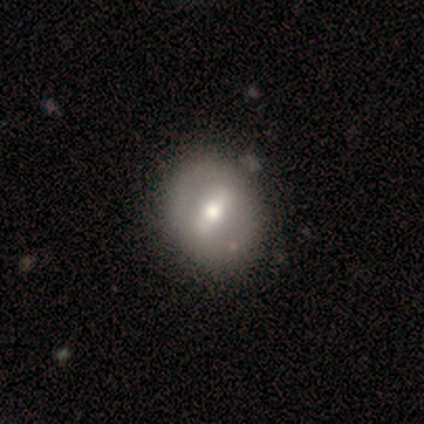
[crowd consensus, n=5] Smooth or featured: featured or disk — 60% (smooth — 40%)
Edge-on disk: no — 100%
Bar: strong — 67% (weak — 33%)
Spiral arms: no — 100%
Bulge size: large — 33% (tied with moderate — 33%; small — 33%)
Merging: none — 60% (minor disturbance — 40%)